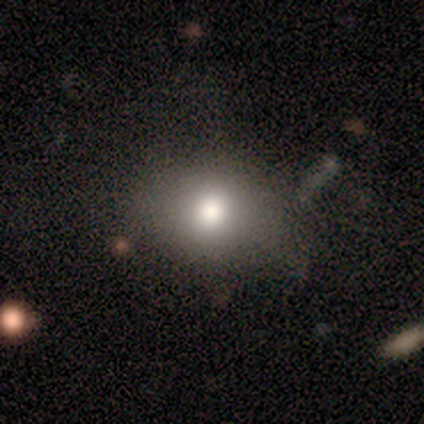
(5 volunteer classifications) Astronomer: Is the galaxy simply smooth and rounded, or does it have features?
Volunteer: smooth — 100%.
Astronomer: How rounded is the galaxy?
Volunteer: round — 60% (runner-up: in between, 40%).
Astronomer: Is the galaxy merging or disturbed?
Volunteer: none — 100%.